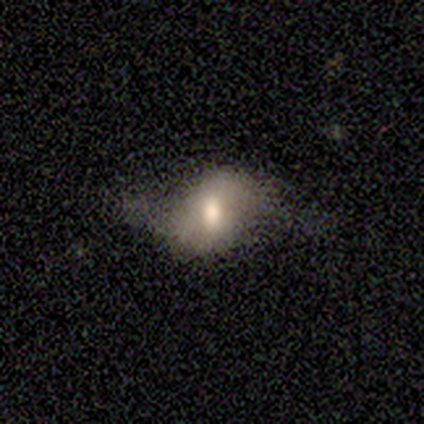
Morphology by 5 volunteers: Overall: smooth (40%, tied with featured or disk). How rounded: in between (100%). Merging: major disturbance (50%; none 25%).